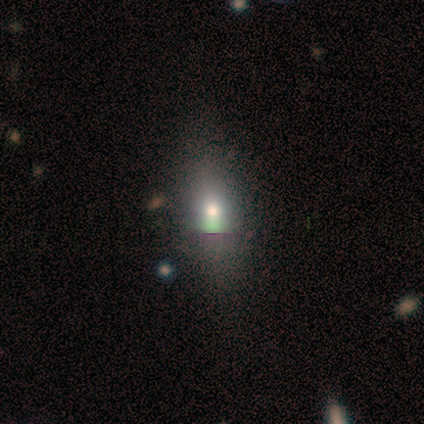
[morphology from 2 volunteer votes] Smooth or featured? smooth (50%, tied with star or artifact)
How rounded? in between (100%)
Merging? none (100%)